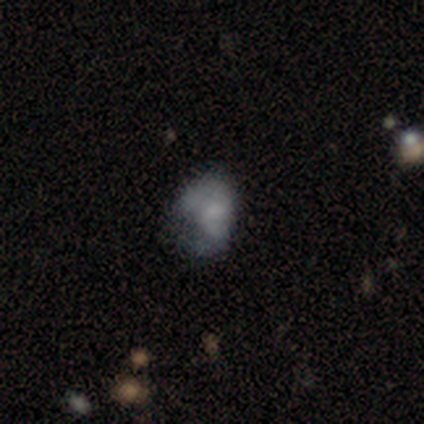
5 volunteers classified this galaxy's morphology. Smooth or featured? 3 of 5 (60%) said smooth. How rounded? 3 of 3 (100%) said in between. Merging? 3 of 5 (60%) said minor disturbance.